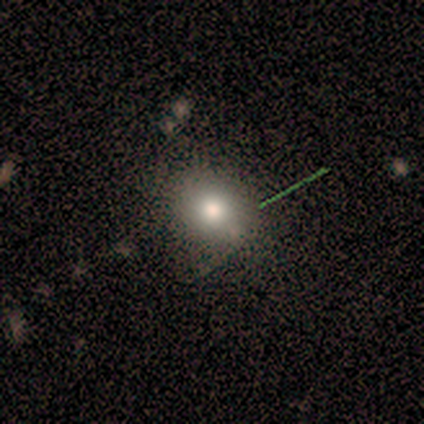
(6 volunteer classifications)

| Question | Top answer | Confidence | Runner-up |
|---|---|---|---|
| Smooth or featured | smooth | 83% | featured or disk (17%) |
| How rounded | round | 100% | — |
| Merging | none | 67% | minor disturbance (17%) |